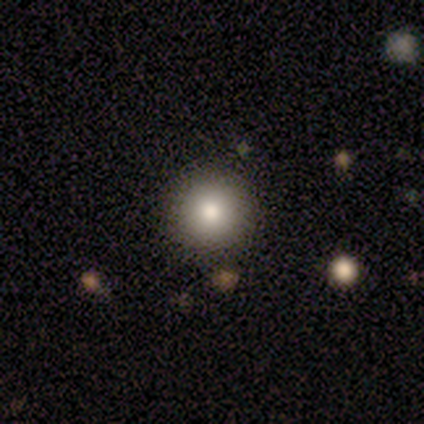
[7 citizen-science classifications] smooth_or_featured: smooth (p=0.86) [alt: star or artifact p=0.14]
how_rounded: round (p=1.00)
merging: none (p=1.00)